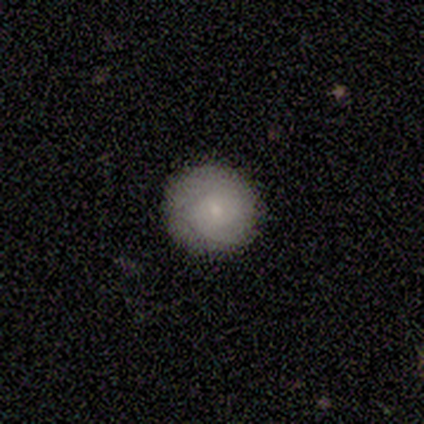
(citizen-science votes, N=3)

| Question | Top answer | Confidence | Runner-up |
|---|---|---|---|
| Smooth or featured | smooth | 67% | star or artifact (33%) |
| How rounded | round | 100% | — |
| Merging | none | 100% | — |